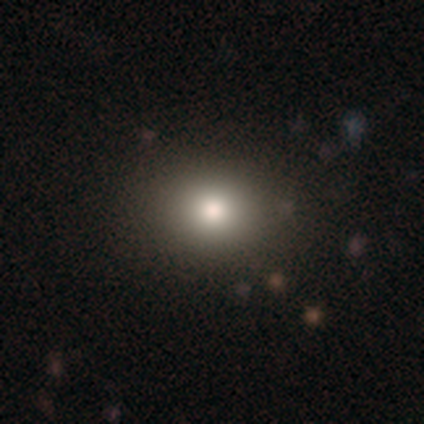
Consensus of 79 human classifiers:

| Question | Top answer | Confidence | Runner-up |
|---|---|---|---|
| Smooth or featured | smooth | 81% | star or artifact (14%) |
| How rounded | round | 56% | in between (44%) |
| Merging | none | 49% | minor disturbance (4%) |